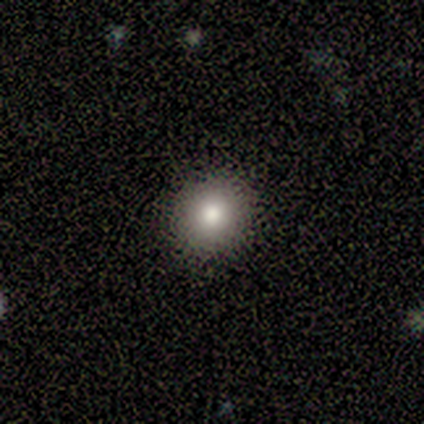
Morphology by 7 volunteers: Smooth or featured? smooth (71%)
How rounded? round (80%)
Merging? none (100%)